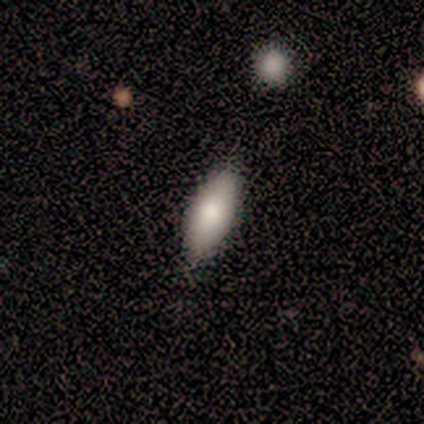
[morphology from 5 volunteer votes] Smooth or featured? smooth (80%)
How rounded? in between (100%)
Merging? none (75%)